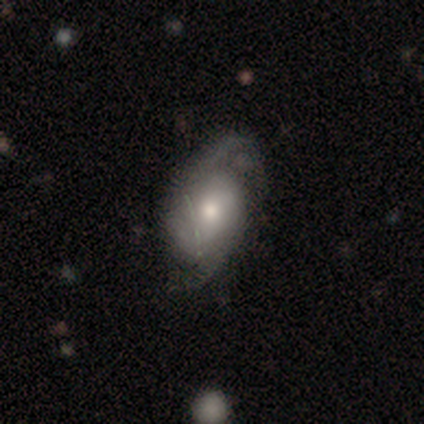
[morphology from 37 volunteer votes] This appears to be a featured or disk galaxy (78%) with no bar (69%), 2 (83%) medium (48%) spiral arms (100%) and a moderate central bulge (76%). Merging: none (61%).